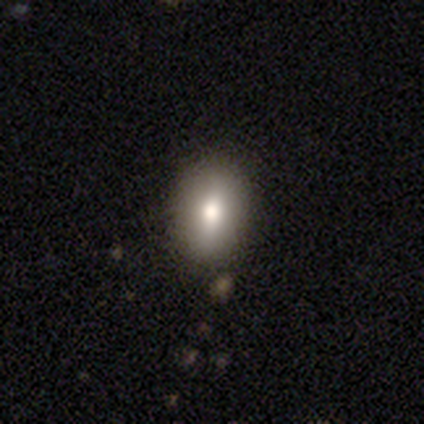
A smooth galaxy with no disk features (100%) that is in between round and cigar-shaped (60%). Merging: none (100%).